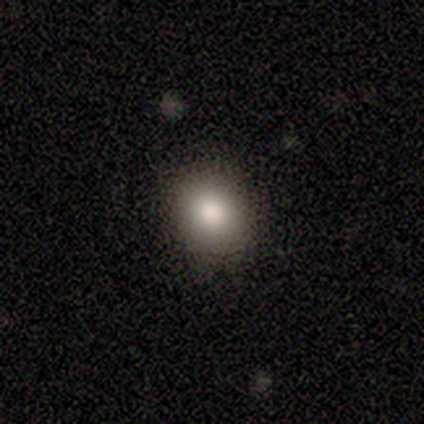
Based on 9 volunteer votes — smooth 100%, featured or disk 0%, star or artifact 0%. Down the decision tree: how rounded — in between (67%); merging — none (100%).